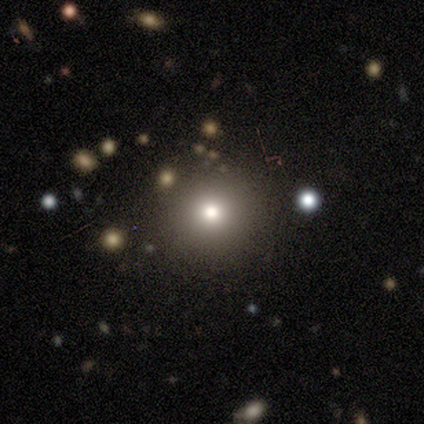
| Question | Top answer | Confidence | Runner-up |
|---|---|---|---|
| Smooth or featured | smooth | 80% | featured or disk (20%) |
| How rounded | round | 100% | — |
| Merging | none | 80% | major disturbance (20%) |